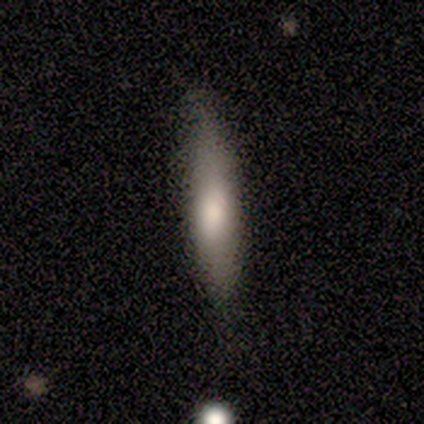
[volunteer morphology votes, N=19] Smooth or featured?
  - smooth: 63% *
  - featured or disk: 32%
  - star or artifact: 5%
How rounded?
  - cigar-shaped: 92% *
  - in between: 8%
  - round: 0%
Merging?
  - none: 78% *
  - minor disturbance: 22%
  - major disturbance: 0%
  - merger: 0%